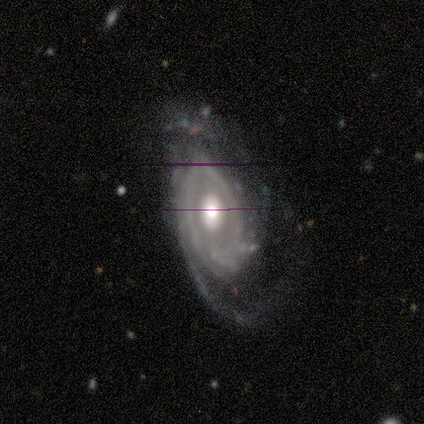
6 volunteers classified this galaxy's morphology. This appears to be a featured or disk galaxy (83%) with no bar (80%), 2 (50%, tied with can't tell) tight (75%) spiral arms (80%) and a moderate central bulge (60%). Merging: minor disturbance (40%, tied with major disturbance).